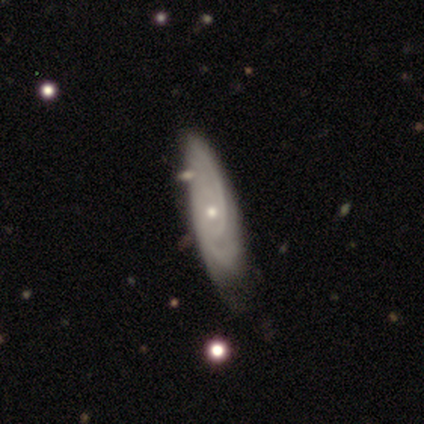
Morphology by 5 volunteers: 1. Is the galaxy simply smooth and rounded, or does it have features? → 60% featured or disk, 20% smooth, 20% star or artifact.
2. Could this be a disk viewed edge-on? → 100% no, 0% yes.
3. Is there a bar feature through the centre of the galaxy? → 100% no, 0% strong, 0% weak.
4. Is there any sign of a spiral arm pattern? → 100% yes, 0% no.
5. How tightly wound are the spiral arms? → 67% medium, 33% tight, 0% loose.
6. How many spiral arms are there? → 67% can't tell, 33% 2, 0% 1, 0% 3, 0% 4, 0% more than 4.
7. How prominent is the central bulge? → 100% small, 0% dominant, 0% large, 0% moderate, 0% none.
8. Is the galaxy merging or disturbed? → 75% none, 25% minor disturbance, 0% major disturbance, 0% merger.